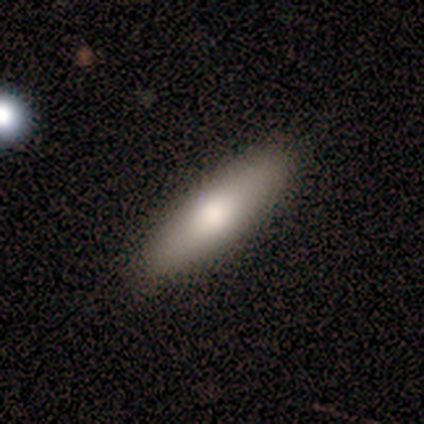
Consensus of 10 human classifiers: smooth 80%, featured or disk 10%, star or artifact 10%. Down the decision tree: how rounded — cigar-shaped (50%); merging — none (100%).